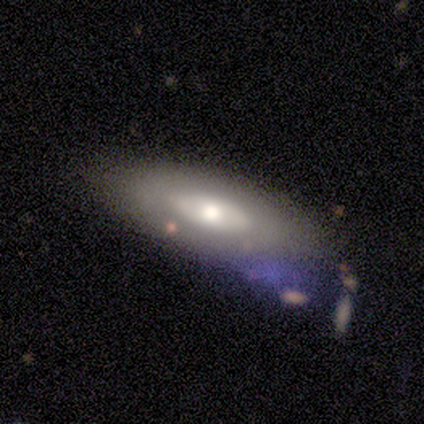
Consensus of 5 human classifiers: Smooth or featured: smooth — 60% (featured or disk — 40%)
How rounded: in between — 100%
Merging: none — 60% (minor disturbance — 20%)